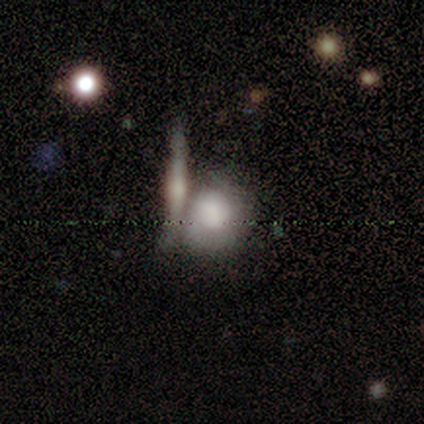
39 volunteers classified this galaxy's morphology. smooth 56%, featured or disk 31%, star or artifact 13%. Down the decision tree: how rounded — round (64%); merging — merger (47%).